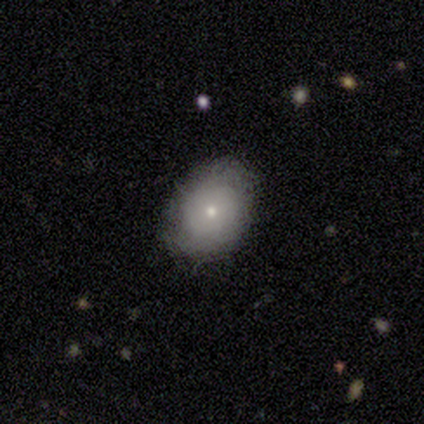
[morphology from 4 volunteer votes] Smooth or featured: smooth — 75% (featured or disk — 25%)
How rounded: in between — 67% (round — 33%)
Merging: none — 75% (merger — 25%)